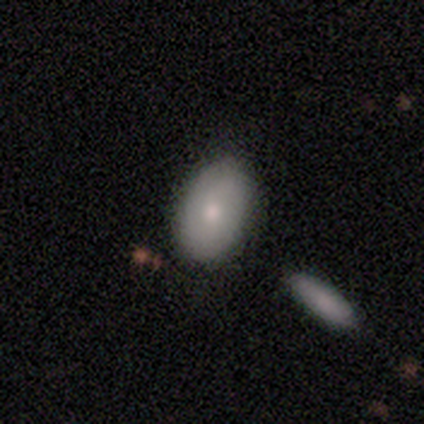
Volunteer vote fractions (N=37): This is clearly a smooth galaxy (86%). How rounded: clearly in between (88%). Merging: likely none (72%).